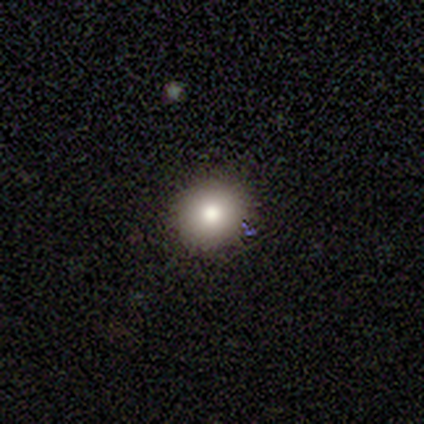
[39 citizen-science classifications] Morphology: type=smooth (79%); roundness=round (90%); merging=none (91%).